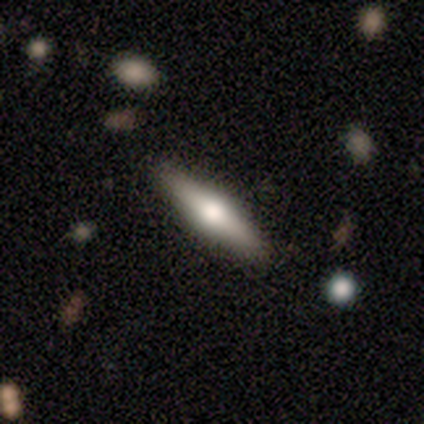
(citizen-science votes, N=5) Morphology: type=smooth (60%); roundness=cigar-shaped (67%); merging=none (80%).